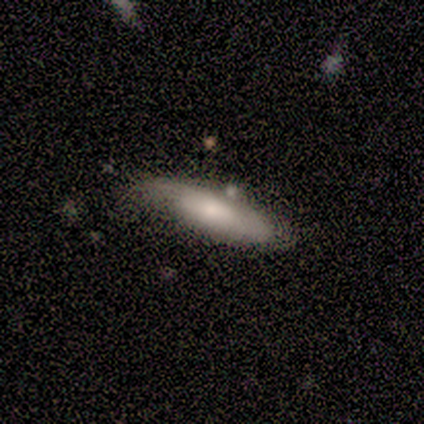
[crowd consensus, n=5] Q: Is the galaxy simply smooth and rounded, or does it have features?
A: smooth — 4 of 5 (80%).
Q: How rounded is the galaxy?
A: in between — 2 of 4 (50%, tied with cigar-shaped).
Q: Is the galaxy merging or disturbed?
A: minor disturbance — 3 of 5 (60%).